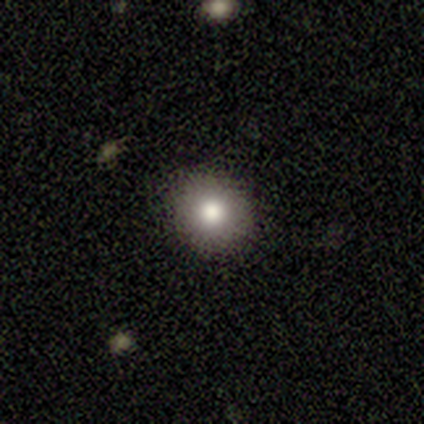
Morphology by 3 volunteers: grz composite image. It shows a smooth galaxy with no disk features (67%) that is round (50%, tied with in between). Merging: none (100%).